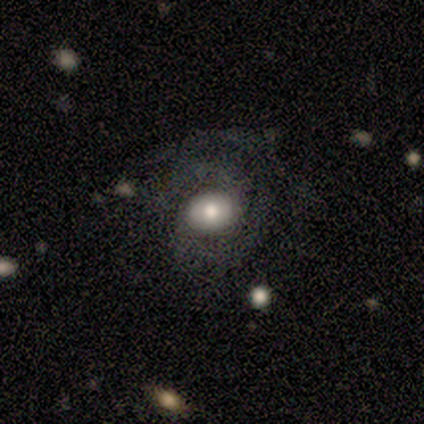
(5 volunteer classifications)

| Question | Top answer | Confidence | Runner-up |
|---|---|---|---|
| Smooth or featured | featured or disk | 80% | smooth (20%) |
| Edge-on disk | no | 100% | — |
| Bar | no | 75% | weak (25%) |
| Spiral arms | yes | 50% | tied: no (50%) |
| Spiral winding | tight | 100% | — |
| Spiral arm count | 2 | 50% | tied: can't tell (50%) |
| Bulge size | moderate | 75% | small (25%) |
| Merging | none | 80% | minor disturbance (20%) |